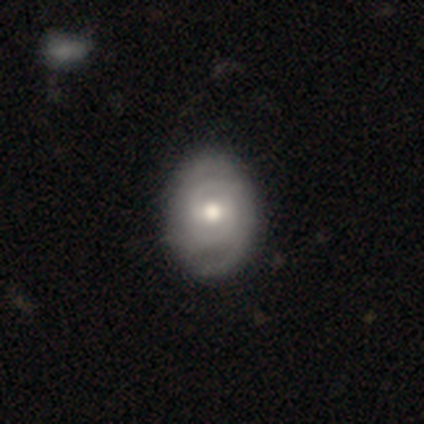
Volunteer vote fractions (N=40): A featured or disk galaxy (68%) with a weak bar (59%), 2 (57%) tight (65%) spiral arms (85%) and a moderate central bulge (63%).

Vote fractions:
- Smooth or featured? featured or disk: 68% / smooth: 28% / star or artifact: 5%
- Edge-on disk? no: 100% / yes: 0%
- Bar? weak: 59% / no: 37% / strong: 4%
- Spiral arms? yes: 85% / no: 15%
- Spiral winding? tight: 65% / medium: 22% / loose: 13%
- Spiral arm count? 2: 57% / can't tell: 35% / 4: 9% / 1: 0% / 3: 0% / more than 4: 0%
- Bulge size? moderate: 63% / large: 15% / small: 15% / dominant: 7% / none: 0%
- Merging? none: 74% / minor disturbance: 21% / major disturbance: 5% / merger: 0%